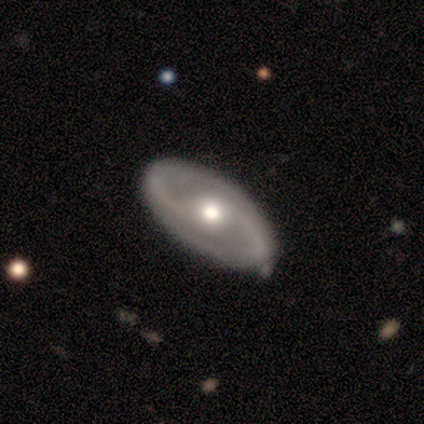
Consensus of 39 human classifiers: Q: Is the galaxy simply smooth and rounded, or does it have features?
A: featured or disk — 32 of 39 (82%).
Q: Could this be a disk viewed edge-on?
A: no — 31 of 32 (97%).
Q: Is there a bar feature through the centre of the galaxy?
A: no — 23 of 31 (74%).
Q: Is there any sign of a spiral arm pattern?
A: yes — 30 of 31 (97%).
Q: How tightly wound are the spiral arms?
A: medium — 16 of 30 (53%).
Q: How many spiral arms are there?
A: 2 — 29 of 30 (97%).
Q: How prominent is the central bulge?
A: moderate — 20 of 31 (65%).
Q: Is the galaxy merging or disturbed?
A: none — 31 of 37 (84%).